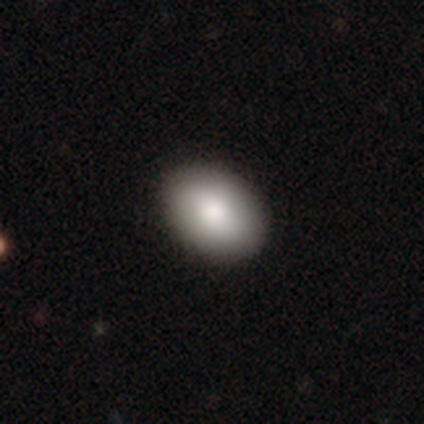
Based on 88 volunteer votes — Smooth or featured: smooth — 78% (star or artifact — 11%)
How rounded: in between — 83% (round — 17%)
Merging: none — 87% (minor disturbance — 9%)